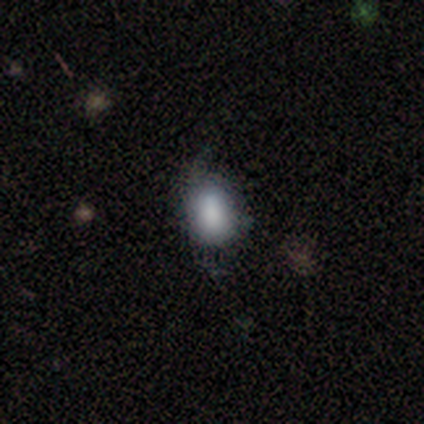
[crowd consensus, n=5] Q: Smooth or featured?
A: smooth (80%); runner-up: featured or disk (20%)
Q: How rounded?
A: in between (100%)
Q: Merging?
A: none (60%); runner-up: minor disturbance (40%)